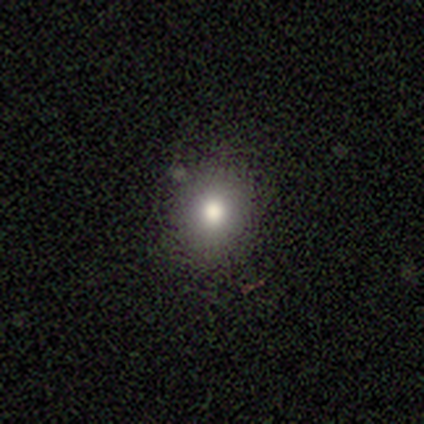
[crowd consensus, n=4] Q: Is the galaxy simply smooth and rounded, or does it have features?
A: smooth — 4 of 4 (100%).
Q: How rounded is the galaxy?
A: round — 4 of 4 (100%).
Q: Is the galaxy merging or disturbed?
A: none — 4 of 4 (100%).